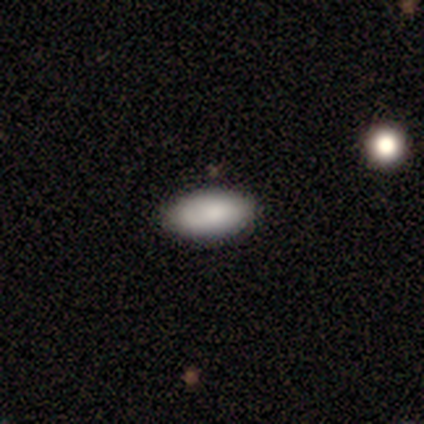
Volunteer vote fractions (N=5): smooth-or-featured: smooth: 100% | featured or disk: 0% | star or artifact: 0%
  how-rounded: in between: 100% | round: 0% | cigar-shaped: 0%
  merging: none: 100% | minor disturbance: 0% | major disturbance: 0% | merger: 0%